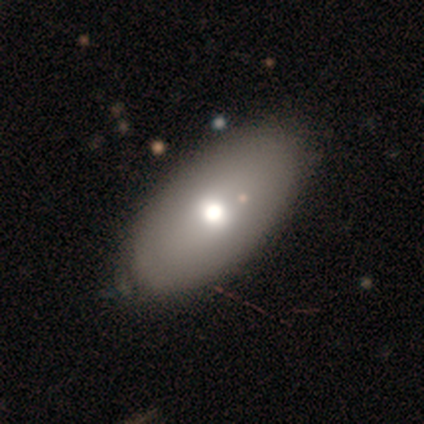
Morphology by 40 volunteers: Volunteers were most divided on "smooth or featured": smooth: 62%, featured or disk: 32%, star or artifact: 5%. More confident: how rounded — in between (92%); merging — none (53%).